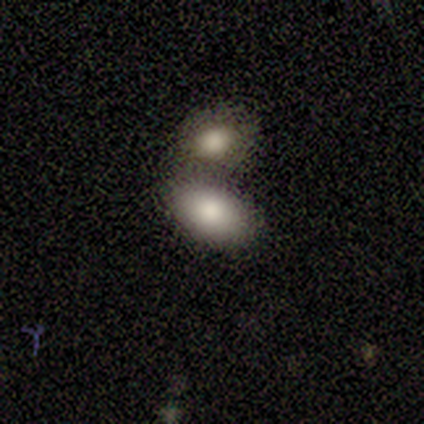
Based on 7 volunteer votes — A smooth galaxy with no disk features (86%) that is in between round and cigar-shaped (100%). Merging: merger (57%).